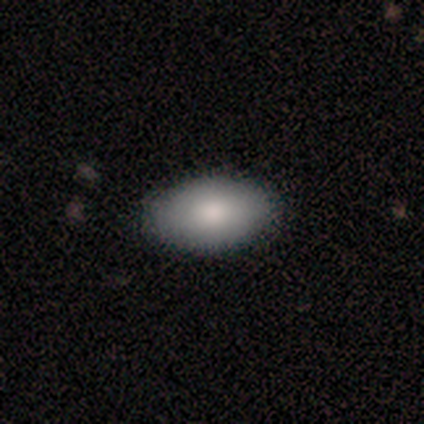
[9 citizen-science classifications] This appears to be a smooth galaxy with no disk features (67%) that is in between round and cigar-shaped (100%). Merging: none (78%).